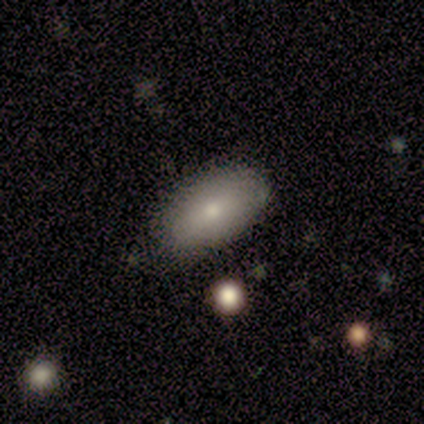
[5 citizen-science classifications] A smooth galaxy with no disk features (100%) that is in between round and cigar-shaped (80%). Merging: none (60%).